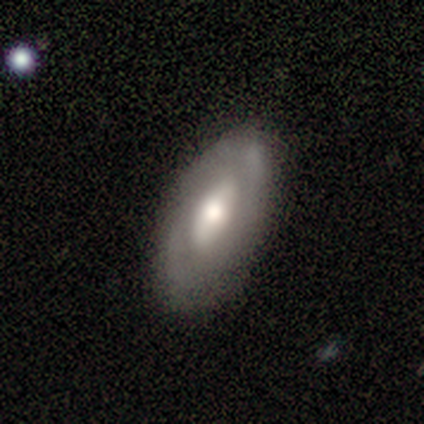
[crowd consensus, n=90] This is possibly a featured or disk galaxy (54%). It is clearly not viewed edge-on (82%). Bar: likely no (60%). Spiral arm pattern: likely no (60%). Central bulge: likely moderate (70%). Merging: clearly none (84%).